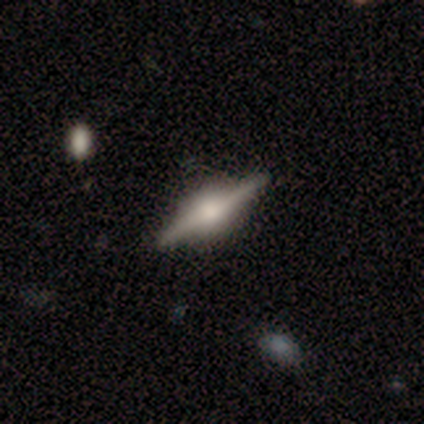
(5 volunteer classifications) smooth_or_featured: featured or disk (p=1.00)
disk_edge_on: yes (p=1.00)
edge_on_bulge: rounded (p=0.80) [alt: boxy p=0.20]
merging: none (p=1.00)